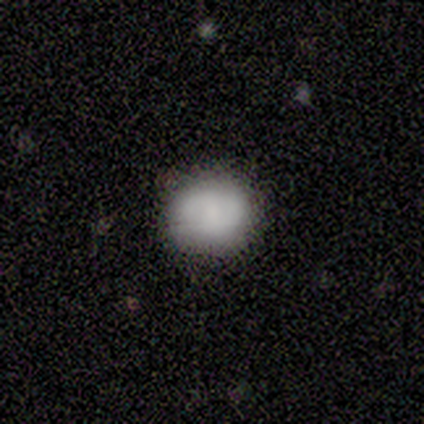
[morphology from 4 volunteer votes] smooth_or_featured: smooth (p=0.50) [tied with: featured or disk p=0.50]
how_rounded: round (p=1.00)
merging: none (p=0.75) [alt: minor disturbance p=0.25]